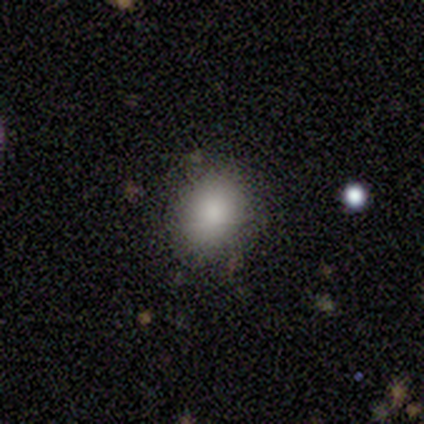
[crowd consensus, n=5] Smooth or featured: smooth — 80% (star or artifact — 20%)
How rounded: in between — 75% (round — 25%)
Merging: none — 75% (minor disturbance — 25%)